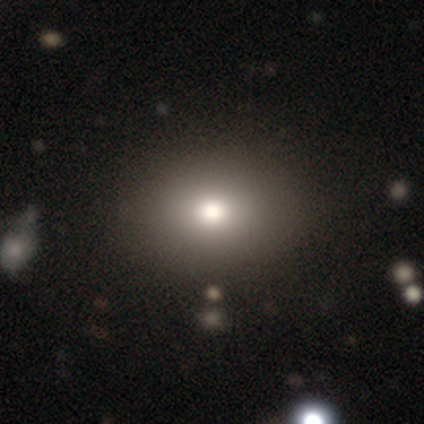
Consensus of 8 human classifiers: Volunteers were most divided on "how rounded": in between: 57%, round: 43%, cigar-shaped: 0%. More confident: merging — none (100%); smooth or featured — smooth (88%).